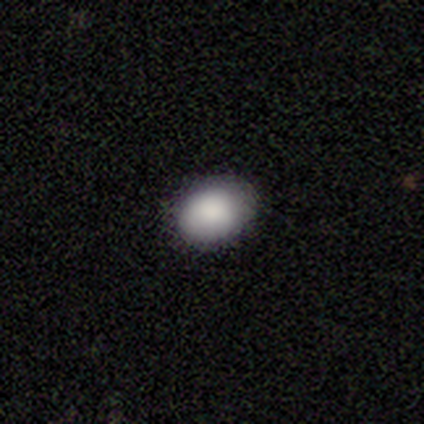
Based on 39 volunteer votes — Q: Smooth or featured?
A: smooth (85%); runner-up: featured or disk (10%)
Q: How rounded?
A: in between (64%); runner-up: round (36%)
Q: Merging?
A: none (92%); runner-up: minor disturbance (8%)